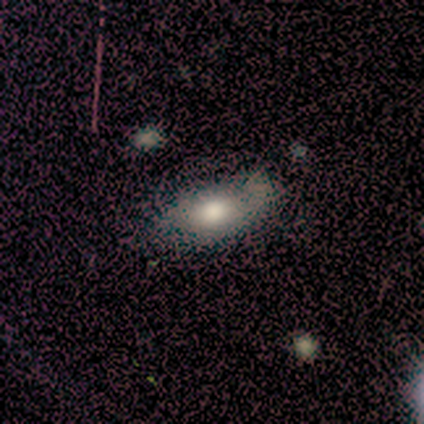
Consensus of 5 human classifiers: Volunteers were most divided on "merging": minor disturbance: 60%, none: 40%, major disturbance: 0%, merger: 0%. More confident: smooth or featured — smooth (80%); how rounded — in between (75%).